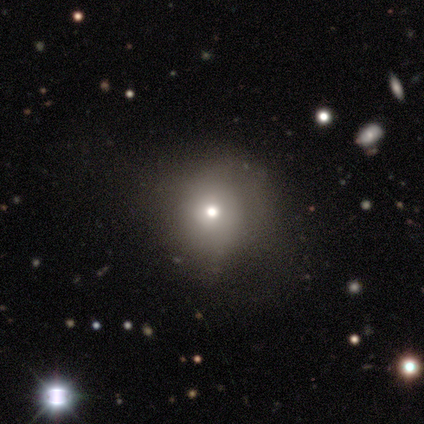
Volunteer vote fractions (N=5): smooth_or_featured: smooth (p=0.80) [alt: featured or disk p=0.20]
how_rounded: round (p=1.00)
merging: none (p=1.00)